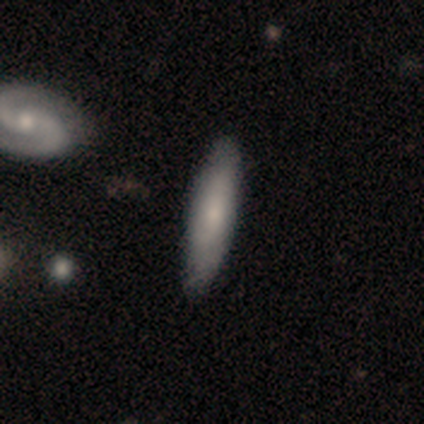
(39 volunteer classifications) Smooth or featured? 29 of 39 (74%) said smooth. How rounded? 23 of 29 (79%) said cigar-shaped. Merging? 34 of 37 (92%) said none.